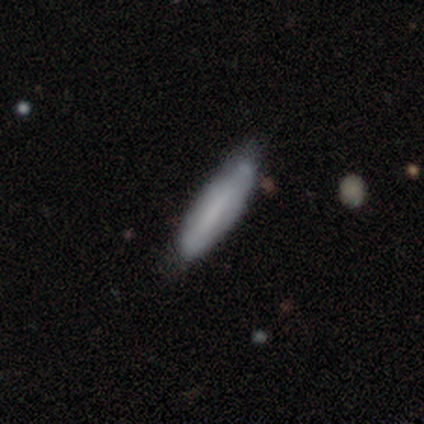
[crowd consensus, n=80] A smooth galaxy with no disk features (72%) that is cigar-shaped (69%). Merging: none (39%).